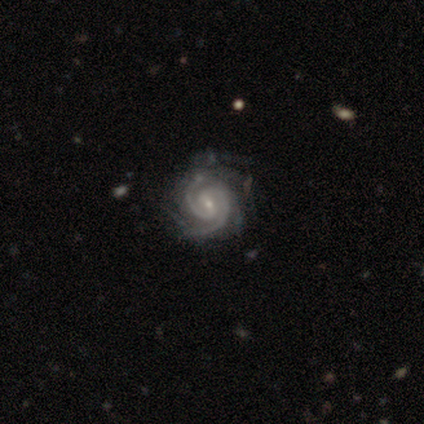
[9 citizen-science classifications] Overall: featured or disk (89%). Edge-on disk: no (100%). Bar: weak (62%; no 25%). Spiral arms: yes (100%). Spiral arm count: 2 (50%; 3 38%). Spiral winding: tight (75%). Bulge size: small (75%). Merging: none (75%).